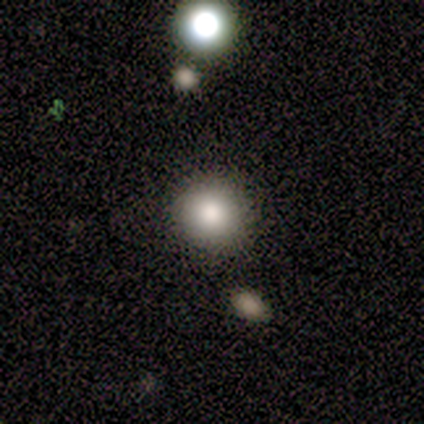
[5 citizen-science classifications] Smooth or featured: smooth — 60% (featured or disk — 20%)
How rounded: round — 67% (in between — 33%)
Merging: none — 75% (minor disturbance — 25%)